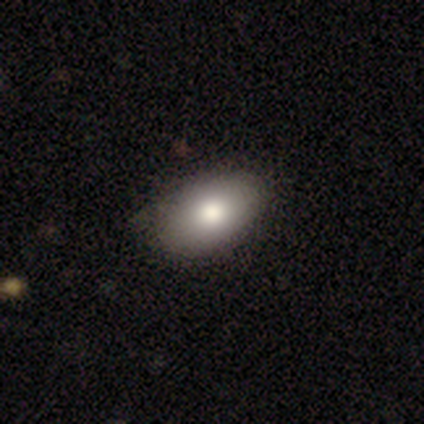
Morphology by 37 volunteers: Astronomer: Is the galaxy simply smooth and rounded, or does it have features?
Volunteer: smooth — 76%.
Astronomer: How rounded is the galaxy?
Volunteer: in between — 100%.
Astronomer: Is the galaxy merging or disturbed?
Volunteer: none — 85%.